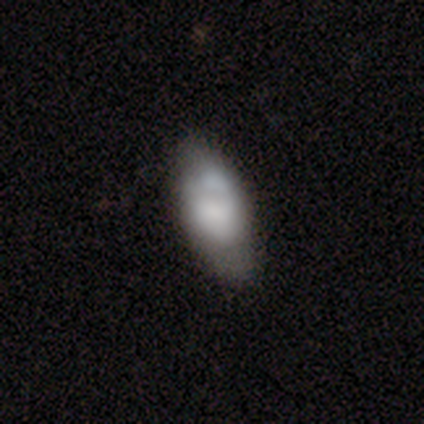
Q: Smooth or featured?
A: smooth (60%); runner-up: featured or disk (40%)
Q: How rounded?
A: in between (100%)
Q: Merging?
A: none (60%); runner-up: minor disturbance (40%)